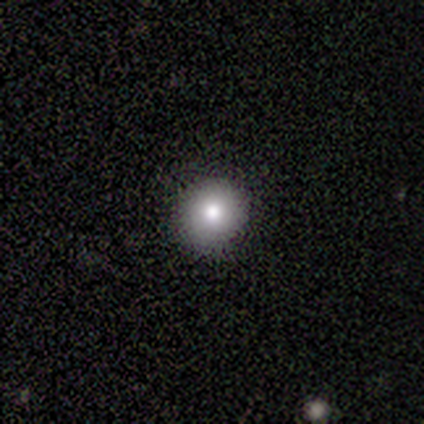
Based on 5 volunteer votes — Morphology: type=smooth (100%); roundness=round (100%); merging=none (100%).